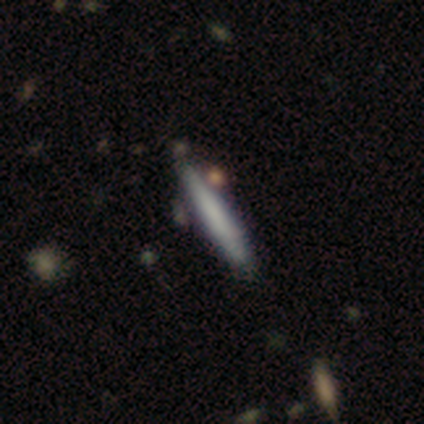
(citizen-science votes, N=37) smooth 73%, featured or disk 24%, star or artifact 3%. Down the decision tree: how rounded — cigar-shaped (100%); merging — none (69%).